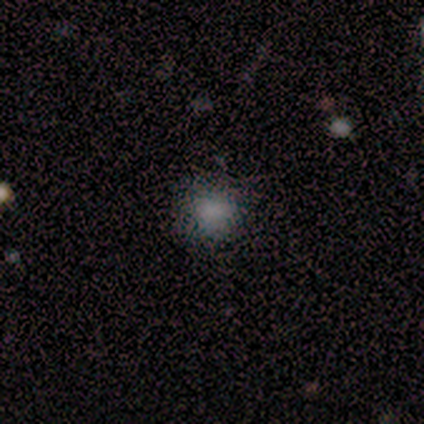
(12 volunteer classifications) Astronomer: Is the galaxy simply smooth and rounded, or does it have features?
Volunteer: smooth — 92%.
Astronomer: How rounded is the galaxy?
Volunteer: round — 100%.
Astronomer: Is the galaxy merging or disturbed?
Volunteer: none — 91%.